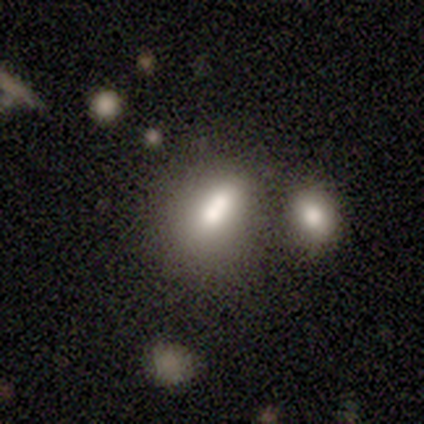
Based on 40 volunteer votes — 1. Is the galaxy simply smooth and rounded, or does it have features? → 60% smooth, 35% featured or disk, 5% star or artifact.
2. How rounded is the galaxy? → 62% in between, 33% round, 4% cigar-shaped.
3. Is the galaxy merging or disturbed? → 58% merger, 21% none, 13% minor disturbance, 5% major disturbance.